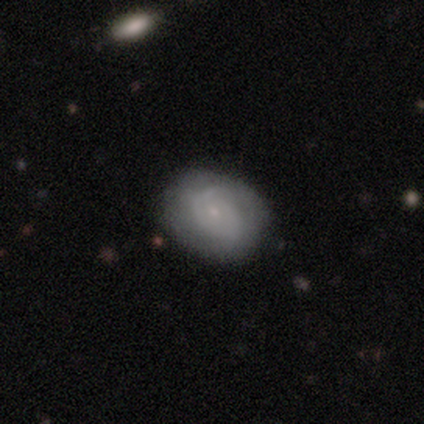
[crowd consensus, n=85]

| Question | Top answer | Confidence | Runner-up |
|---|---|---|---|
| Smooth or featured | featured or disk | 58% | smooth (38%) |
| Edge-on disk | no | 100% | — |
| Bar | no | 73% | weak (27%) |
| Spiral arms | yes | 71% | no (29%) |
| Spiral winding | tight | 66% | medium (26%) |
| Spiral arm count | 2 | 43% | can't tell (34%) |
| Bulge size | small | 82% | moderate (12%) |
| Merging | none | 78% | minor disturbance (17%) |